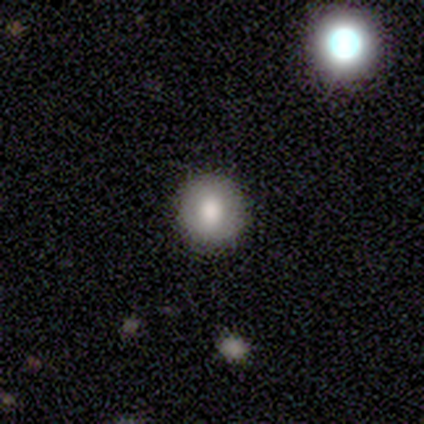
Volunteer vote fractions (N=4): Volunteers were most divided on "how rounded": round: 67%, in between: 33%, cigar-shaped: 0%. More confident: merging — none (100%); smooth or featured — smooth (75%).